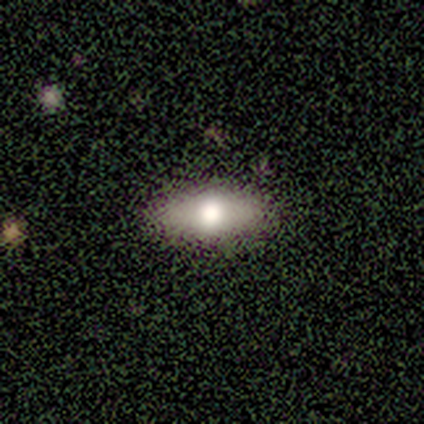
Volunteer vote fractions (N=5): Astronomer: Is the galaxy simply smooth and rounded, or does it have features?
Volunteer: smooth — 80%.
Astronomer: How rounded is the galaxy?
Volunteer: in between — 75%.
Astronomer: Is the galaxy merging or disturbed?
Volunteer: none — 80%.